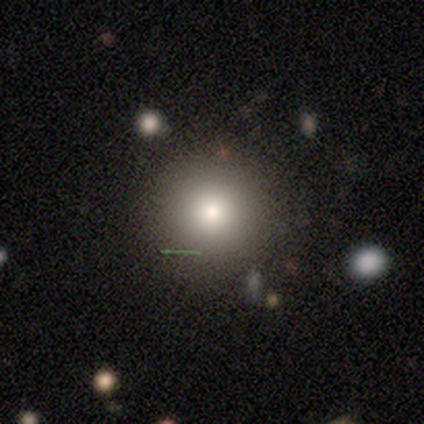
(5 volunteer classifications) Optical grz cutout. It shows a smooth galaxy with no disk features (80%) that is round (100%). Merging: none (100%).